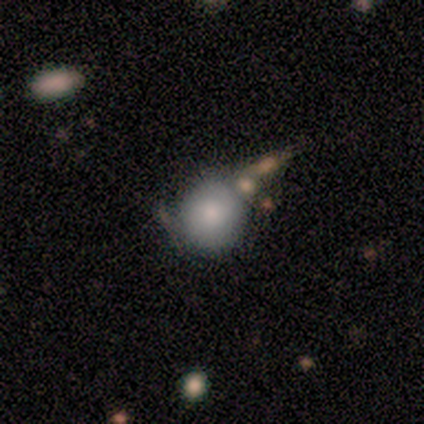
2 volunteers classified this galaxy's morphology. Q: Smooth or featured?
A: smooth (100%)
Q: How rounded?
A: round (100%)
Q: Merging?
A: none (50%); tied with: minor disturbance (50%)